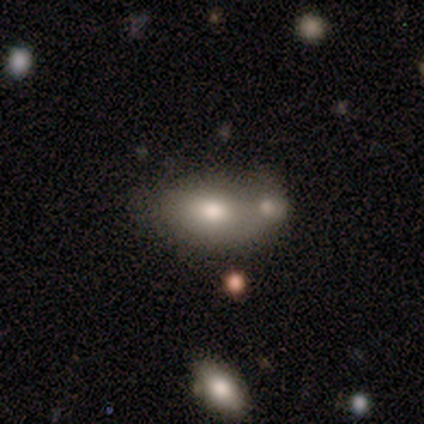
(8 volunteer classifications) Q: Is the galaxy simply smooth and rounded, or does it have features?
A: smooth — 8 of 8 (100%).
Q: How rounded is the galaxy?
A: in between — 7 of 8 (88%).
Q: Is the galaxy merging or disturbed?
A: merger — 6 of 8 (75%).